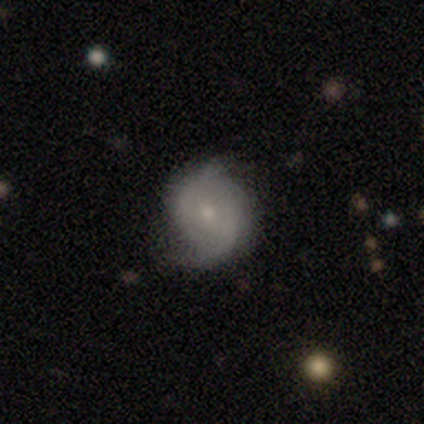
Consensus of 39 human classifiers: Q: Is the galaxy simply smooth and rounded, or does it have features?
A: featured or disk — 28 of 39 (72%).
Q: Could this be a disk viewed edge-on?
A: no — 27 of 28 (96%).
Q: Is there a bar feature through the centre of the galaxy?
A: no — 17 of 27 (63%).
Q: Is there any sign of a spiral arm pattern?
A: yes — 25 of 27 (93%).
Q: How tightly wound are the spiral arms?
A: medium — 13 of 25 (52%).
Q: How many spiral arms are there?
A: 2 — 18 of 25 (72%).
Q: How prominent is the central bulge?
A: small — 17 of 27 (63%).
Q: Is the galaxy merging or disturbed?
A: none — 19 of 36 (53%).